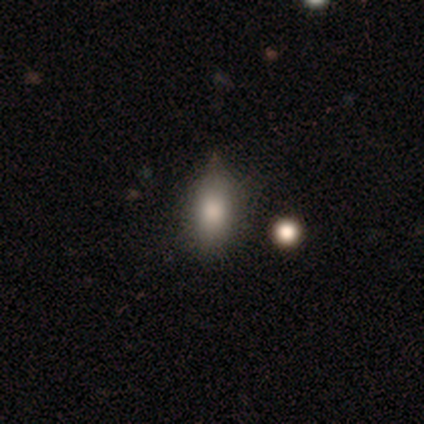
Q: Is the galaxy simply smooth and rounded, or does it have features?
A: smooth — 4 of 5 (80%).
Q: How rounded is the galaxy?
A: in between — 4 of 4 (100%).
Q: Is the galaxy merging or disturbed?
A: none — 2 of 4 (50%, tied with minor disturbance).